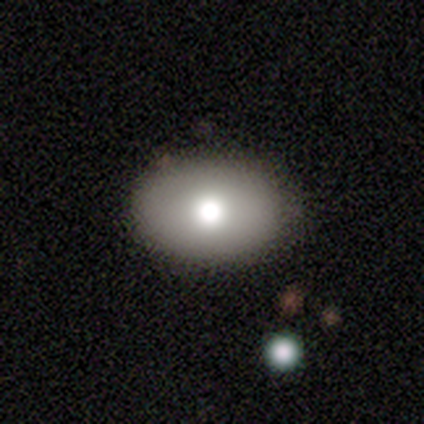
Q: Smooth or featured?
A: smooth (80%); runner-up: featured or disk (18%)
Q: How rounded?
A: in between (91%); runner-up: round (9%)
Q: Merging?
A: none (90%); runner-up: minor disturbance (10%)